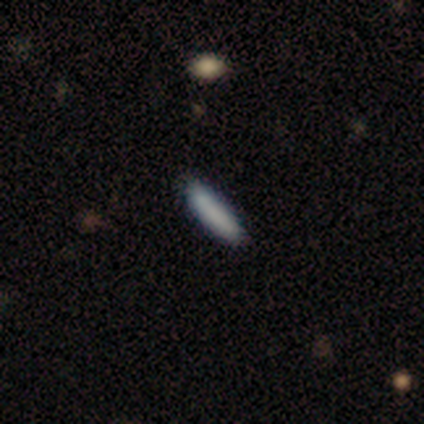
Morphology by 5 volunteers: smooth 100%, featured or disk 0%, star or artifact 0%. Down the decision tree: how rounded — cigar-shaped (80%); merging — none (100%).